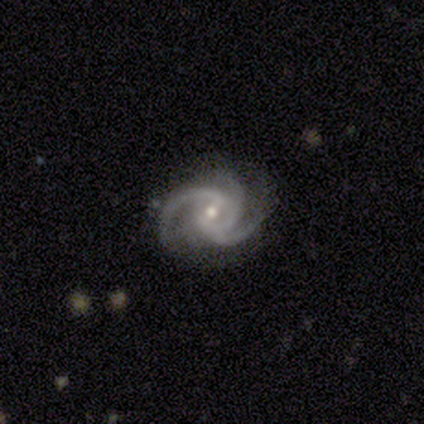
This appears to be a featured or disk galaxy (97%) with a weak bar (57%), 3 (78%) medium (65%) spiral arms (100%) and a moderate central bulge (54%). Merging: none (72%).